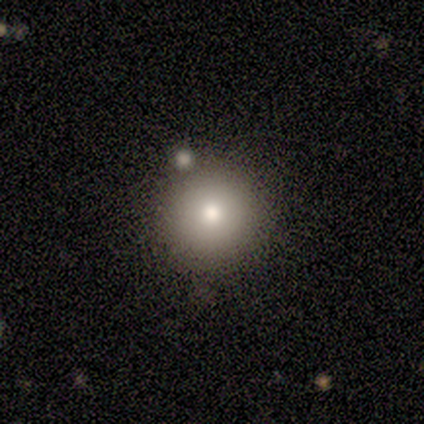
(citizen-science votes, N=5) Q: Smooth or featured?
A: smooth (100%)
Q: How rounded?
A: round (100%)
Q: Merging?
A: none (80%); runner-up: major disturbance (20%)